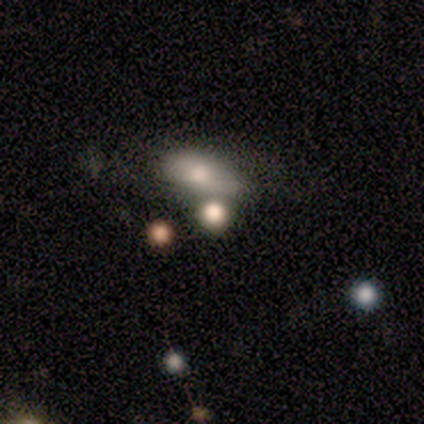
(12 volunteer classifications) smooth-or-featured: smooth: 67% | featured or disk: 17% | star or artifact: 17%
  how-rounded: in between: 75% | round: 12% | cigar-shaped: 12%
  merging: none: 60% | merger: 20% | minor disturbance: 10% | major disturbance: 10%